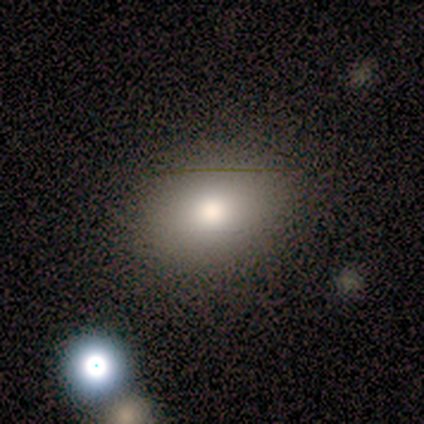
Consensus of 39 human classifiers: smooth 82%, featured or disk 10%, star or artifact 8%. Down the decision tree: how rounded — in between (69%); merging — none (81%).